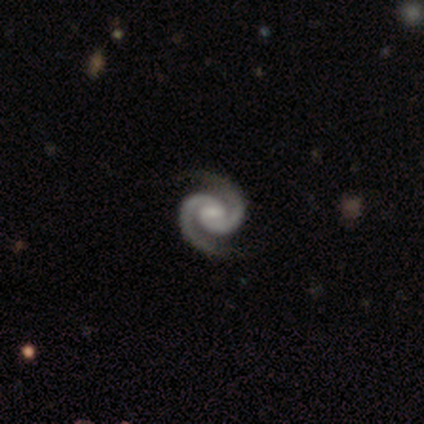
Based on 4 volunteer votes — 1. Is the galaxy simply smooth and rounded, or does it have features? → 100% featured or disk, 0% smooth, 0% star or artifact.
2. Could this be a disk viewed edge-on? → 100% no, 0% yes.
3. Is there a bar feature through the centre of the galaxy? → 50% weak (tied), 50% no (tied), 0% strong.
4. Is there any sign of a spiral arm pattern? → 100% yes, 0% no.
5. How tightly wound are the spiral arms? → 75% medium, 25% tight, 0% loose.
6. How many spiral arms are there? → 100% 2, 0% 1, 0% 3, 0% 4, 0% more than 4, 0% can't tell.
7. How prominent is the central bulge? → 50% moderate (tied), 50% small (tied), 0% dominant, 0% large, 0% none.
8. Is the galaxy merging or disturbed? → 100% none, 0% minor disturbance, 0% major disturbance, 0% merger.